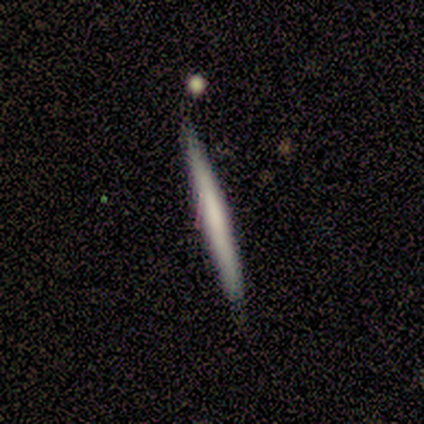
A featured or disk galaxy (60%) viewed edge-on (100%) with no central bulge (67%). Merging: none (60%).